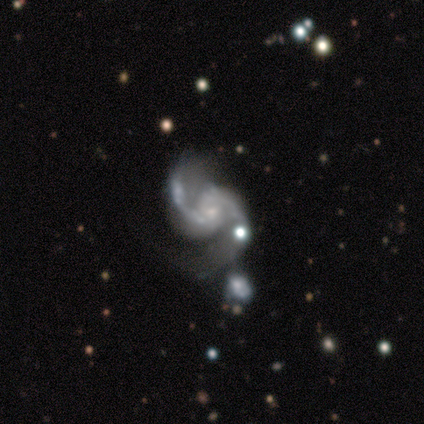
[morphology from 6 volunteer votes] Smooth or featured? 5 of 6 (83%) said featured or disk. Edge-on disk? 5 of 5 (100%) said no. Bar? 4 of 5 (80%) said no. Spiral arms? 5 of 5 (100%) said yes. Spiral winding? 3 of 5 (60%) said loose. Spiral arm count? 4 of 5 (80%) said 2. Bulge size? 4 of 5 (80%) said small. Merging? 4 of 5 (80%) said none.